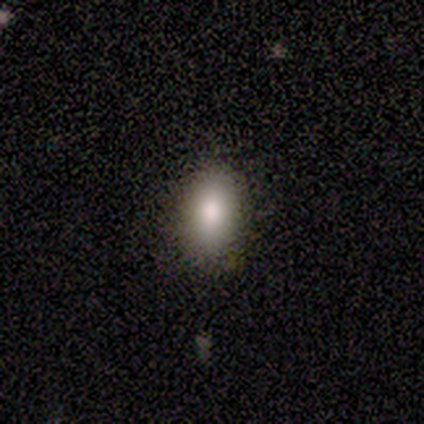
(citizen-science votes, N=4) smooth 75%, featured or disk 25%, star or artifact 0%. Down the decision tree: how rounded — in between (100%); merging — none (75%).